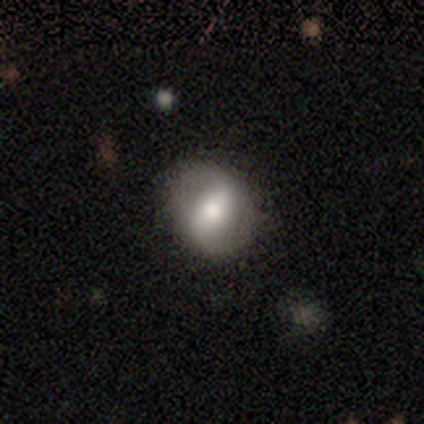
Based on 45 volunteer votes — smooth_or_featured: featured or disk (p=0.47) [alt: smooth p=0.44]
disk_edge_on: no (p=0.90) [alt: yes p=0.10]
bar: strong (p=0.37) [alt: weak p=0.32]
has_spiral_arms: yes (p=0.63) [alt: no p=0.37]
spiral_winding: loose (p=0.67) [alt: medium p=0.33]
spiral_arm_count: 2 (p=0.83) [alt: can't tell p=0.17]
bulge_size: moderate (p=0.84) [alt: small p=0.11]
merging: none (p=0.78) [alt: minor disturbance p=0.20]